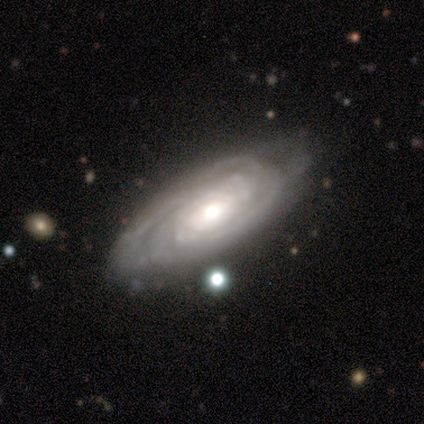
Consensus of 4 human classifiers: Smooth or featured? 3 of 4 (75%) said featured or disk. Edge-on disk? 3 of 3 (100%) said no. Bar? 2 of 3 (67%) said no. Spiral arms? 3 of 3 (100%) said yes. Spiral winding? 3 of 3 (100%) said tight. Spiral arm count? 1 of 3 (33%, tied with 3 and can't tell) said 2. Bulge size? 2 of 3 (67%) said moderate. Merging? 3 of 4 (75%) said none.